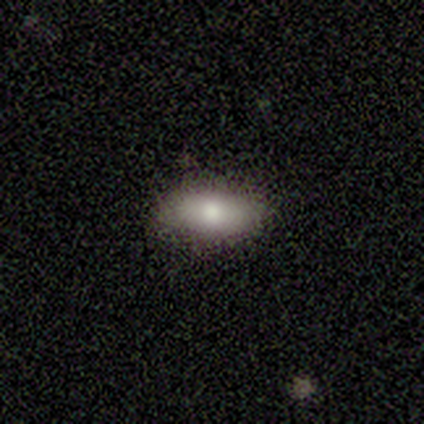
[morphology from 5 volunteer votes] Q: Smooth or featured?
A: smooth (100%)
Q: How rounded?
A: in between (100%)
Q: Merging?
A: none (60%); runner-up: minor disturbance (40%)